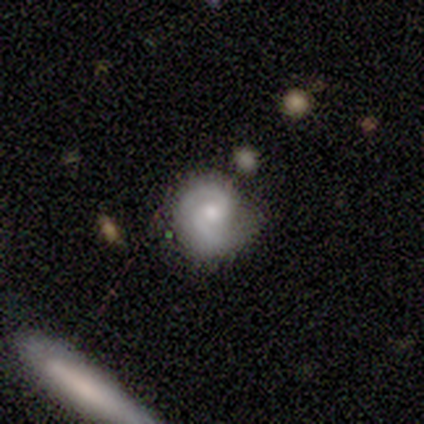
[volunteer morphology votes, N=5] A smooth galaxy with no disk features (40%, tied with featured or disk) that is round (100%).

Vote fractions:
- Smooth or featured? smooth: 40% (tied) / featured or disk: 40% (tied) / star or artifact: 20%
- How rounded? round: 100% / in between: 0% / cigar-shaped: 0%
- Merging? minor disturbance: 75% / none: 25% / major disturbance: 0% / merger: 0%